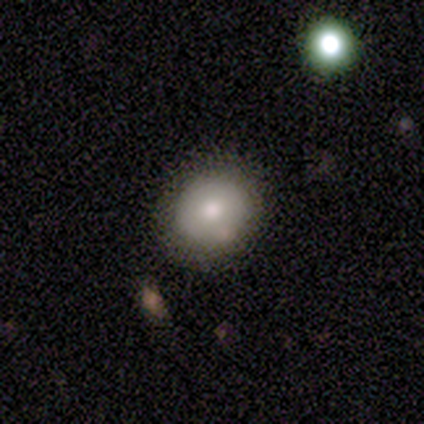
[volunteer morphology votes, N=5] Smooth or featured? smooth (80%)
How rounded? round (75%)
Merging? none (80%)